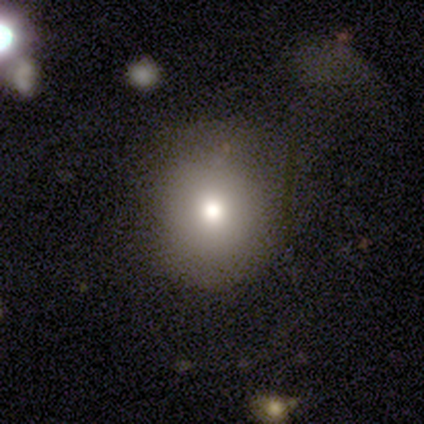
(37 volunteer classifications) This appears to be a smooth galaxy with no disk features (86%) that is round (78%). Merging: none (76%).